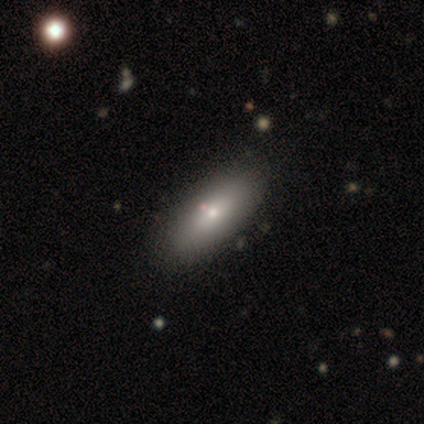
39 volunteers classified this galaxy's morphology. Q: Smooth or featured?
A: smooth (62%); runner-up: featured or disk (36%)
Q: How rounded?
A: in between (71%); runner-up: cigar-shaped (29%)
Q: Merging?
A: none (53%); runner-up: merger (5%)